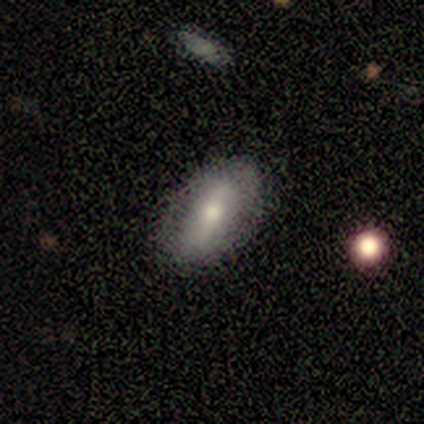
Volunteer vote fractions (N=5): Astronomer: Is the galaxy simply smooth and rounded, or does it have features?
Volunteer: featured or disk — 60%.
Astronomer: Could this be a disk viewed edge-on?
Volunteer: no — 67%.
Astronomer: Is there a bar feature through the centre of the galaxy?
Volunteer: strong — 100%.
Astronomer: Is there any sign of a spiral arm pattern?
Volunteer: no — 100%.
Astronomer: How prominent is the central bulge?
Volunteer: moderate — 100%.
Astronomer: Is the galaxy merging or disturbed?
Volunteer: none — 100%.